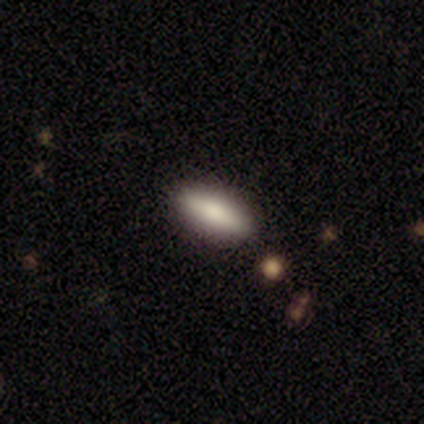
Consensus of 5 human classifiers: This is clearly a smooth galaxy (80%). How rounded: likely in between (75%). Merging: clearly none (80%).